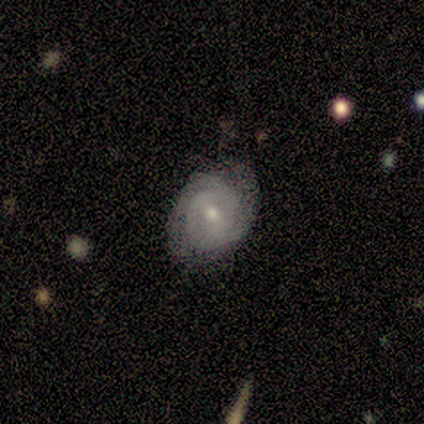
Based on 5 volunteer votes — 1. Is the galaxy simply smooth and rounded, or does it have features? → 60% featured or disk, 40% smooth, 0% star or artifact.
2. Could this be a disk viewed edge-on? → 100% no, 0% yes.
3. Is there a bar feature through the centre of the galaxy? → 67% weak, 33% no, 0% strong.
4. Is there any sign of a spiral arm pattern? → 100% yes, 0% no.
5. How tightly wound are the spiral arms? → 100% tight, 0% medium, 0% loose.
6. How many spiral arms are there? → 100% 2, 0% 1, 0% 3, 0% 4, 0% more than 4, 0% can't tell.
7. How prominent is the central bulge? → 67% moderate, 33% small, 0% dominant, 0% large, 0% none.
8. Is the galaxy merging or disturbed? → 80% none, 20% major disturbance, 0% minor disturbance, 0% merger.